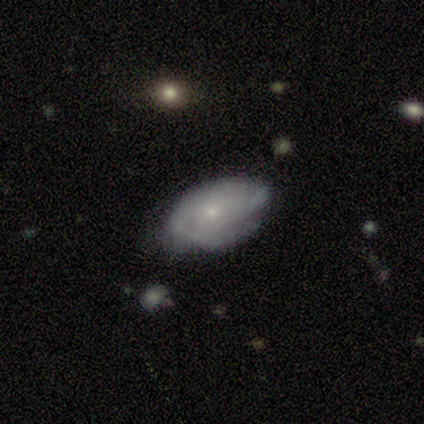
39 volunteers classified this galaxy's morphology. featured or disk 74%, smooth 21%, star or artifact 5%. Down the decision tree: edge-on disk — no (93%); bar — no (78%); spiral arms — yes (89%); spiral arm count — can't tell (54%); spiral winding — tight (75%); bulge size — small (70%); merging — none (68%).